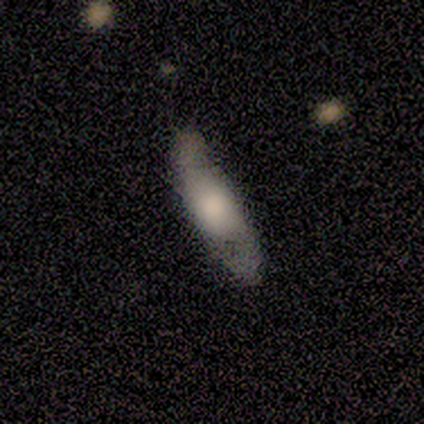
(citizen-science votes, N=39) Smooth or featured? smooth (46%, tied with featured or disk)
How rounded? in between (56%)
Merging? none (47%)